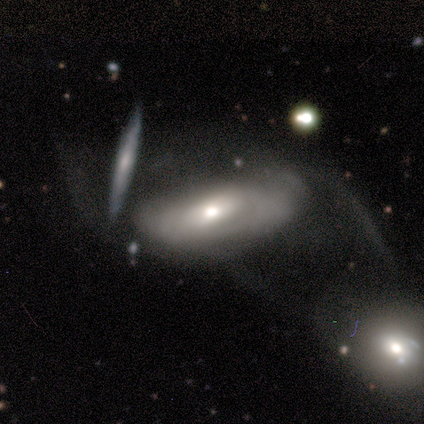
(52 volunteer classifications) Q: Smooth or featured?
A: featured or disk (63%); runner-up: smooth (35%)
Q: Edge-on disk?
A: no (94%); runner-up: yes (6%)
Q: Bar?
A: no (74%); runner-up: weak (23%)
Q: Spiral arms?
A: no (65%); runner-up: yes (35%)
Q: Bulge size?
A: moderate (81%); runner-up: small (16%)
Q: Merging?
A: merger (45%); runner-up: major disturbance (35%)